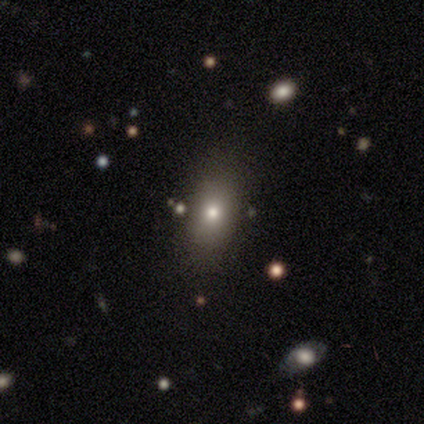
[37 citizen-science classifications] Smooth or featured? smooth (70%)
How rounded? in between (73%)
Merging? none (82%)